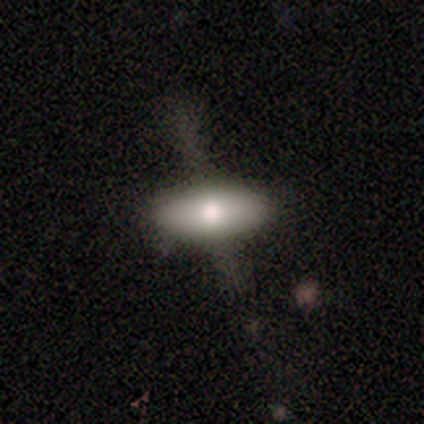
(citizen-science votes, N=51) Smooth or featured?
  - smooth: 63% *
  - featured or disk: 33%
  - star or artifact: 4%
How rounded?
  - in between: 88% *
  - round: 6%
  - cigar-shaped: 6%
Merging?
  - none: 57% *
  - major disturbance: 33%
  - minor disturbance: 10%
  - merger: 0%